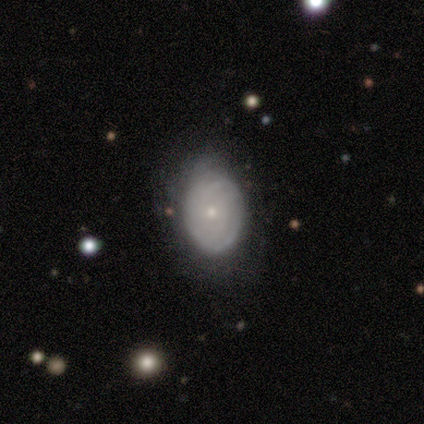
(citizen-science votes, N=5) A featured or disk galaxy (80%) with no bar (100%), tight (50%, tied with loose) spiral arms (50%, tied with no) and a small central bulge (100%). Merging: minor disturbance (60%).